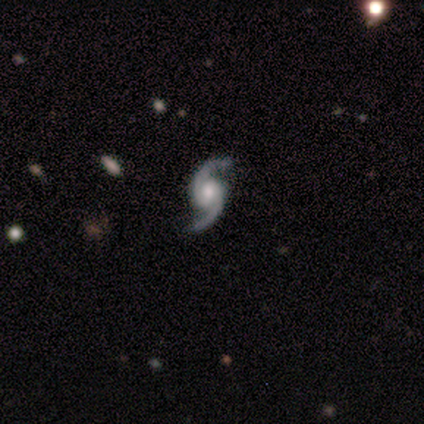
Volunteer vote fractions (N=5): A featured or disk galaxy (100%) with a weak bar (80%), 2 (100%) medium (80%) spiral arms (100%) and a moderate central bulge (80%). Merging: none (60%).